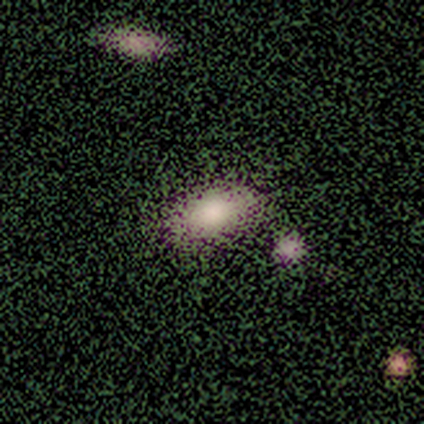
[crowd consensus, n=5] Smooth or featured?
  - smooth: 100% *
  - featured or disk: 0%
  - star or artifact: 0%
How rounded?
  - in between: 100% *
  - round: 0%
  - cigar-shaped: 0%
Merging?
  - none: 100% *
  - minor disturbance: 0%
  - major disturbance: 0%
  - merger: 0%